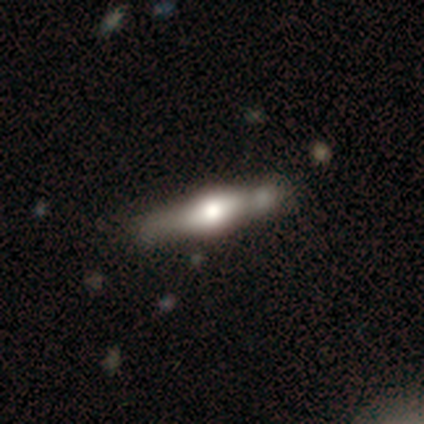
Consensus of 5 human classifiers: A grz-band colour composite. It shows a featured or disk galaxy (100%) viewed edge-on (80%) with a rounded central bulge (100%). Merging: none (100%).